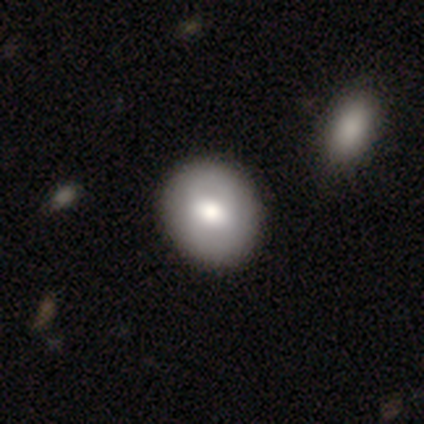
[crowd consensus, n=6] Smooth or featured? 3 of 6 (50%) said featured or disk. Edge-on disk? 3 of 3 (100%) said no. Bar? 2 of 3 (67%) said no. Spiral arms? 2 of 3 (67%) said no. Bulge size? 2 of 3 (67%) said small. Merging? 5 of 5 (100%) said none.